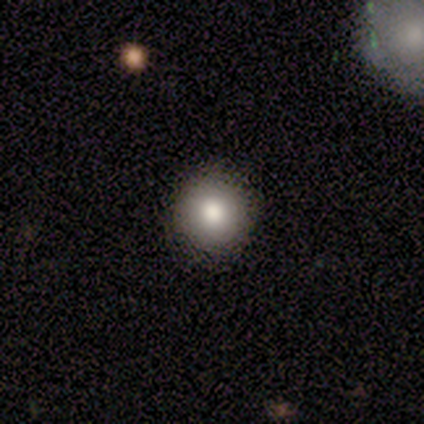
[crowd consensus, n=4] A smooth galaxy with no disk features (75%) that is round (100%).

Vote fractions:
- Smooth or featured? smooth: 75% / featured or disk: 25% / star or artifact: 0%
- How rounded? round: 100% / in between: 0% / cigar-shaped: 0%
- Merging? none: 75% / minor disturbance: 25% / major disturbance: 0% / merger: 0%